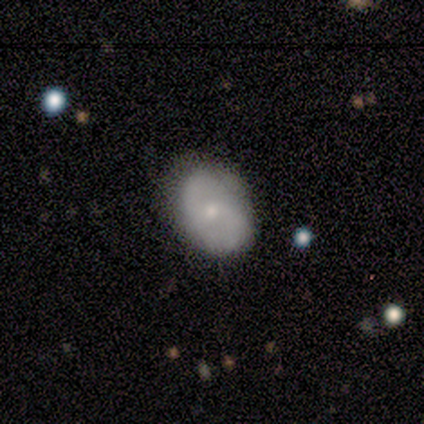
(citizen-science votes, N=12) Morphology: type=smooth (50%, tied with featured or disk); roundness=round (50%, tied with in between); merging=none (83%).